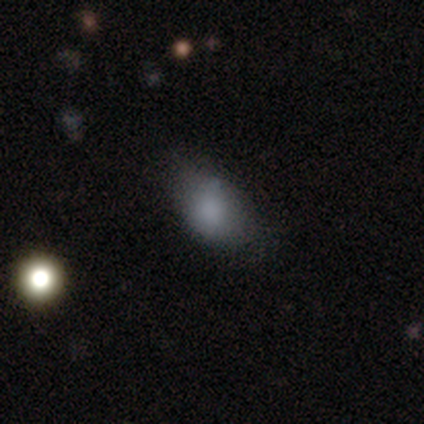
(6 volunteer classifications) smooth_or_featured: smooth (p=0.83) [alt: star or artifact p=0.17]
how_rounded: in between (p=1.00)
merging: none (p=0.80) [alt: minor disturbance p=0.20]